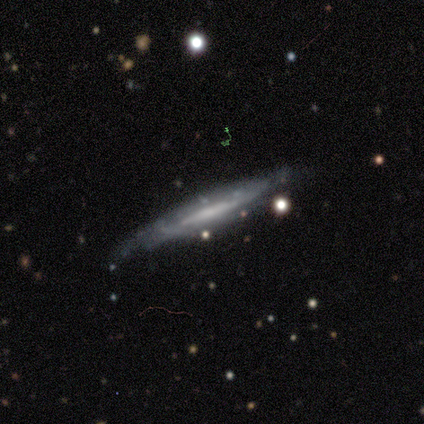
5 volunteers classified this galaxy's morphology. This appears to be a featured or disk galaxy (60%) viewed edge-on (100%) with a boxy central bulge (33%, tied with none and rounded). Merging: none (100%).